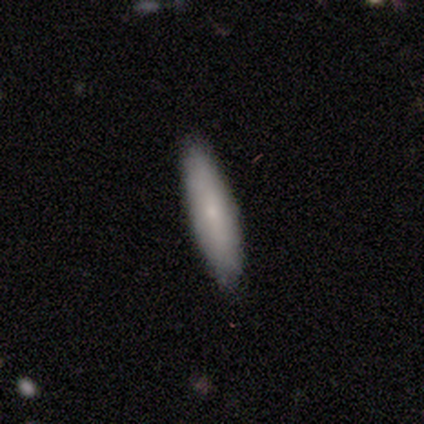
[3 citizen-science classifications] smooth-or-featured: smooth: 100% | featured or disk: 0% | star or artifact: 0%
  how-rounded: in between: 67% | cigar-shaped: 33% | round: 0%
  merging: none: 100% | minor disturbance: 0% | major disturbance: 0% | merger: 0%